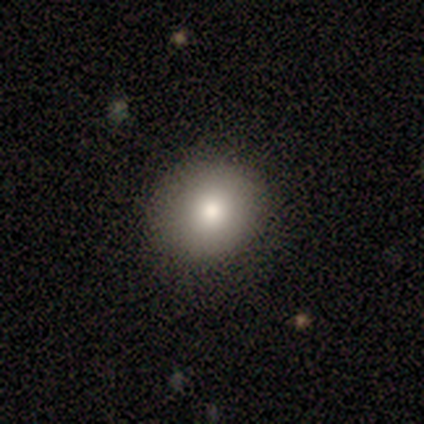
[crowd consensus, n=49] smooth-or-featured: smooth: 86% | featured or disk: 10% | star or artifact: 4%
  how-rounded: round: 83% | in between: 17% | cigar-shaped: 0%
  merging: none: 83% | minor disturbance: 13% | major disturbance: 4% | merger: 0%